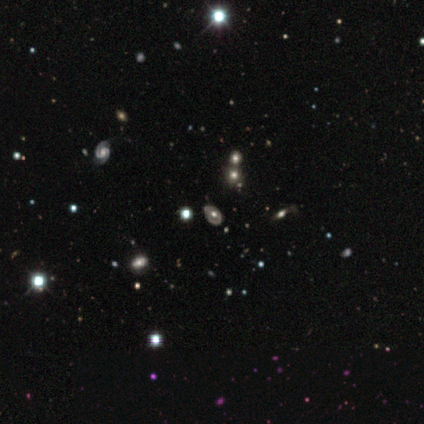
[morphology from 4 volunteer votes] featured or disk 75%, star or artifact 25%, smooth 0%. Down the decision tree: edge-on disk — no (100%); bar — no (100%); spiral arms — no (100%); bulge size — moderate (100%); merging — none (100%).